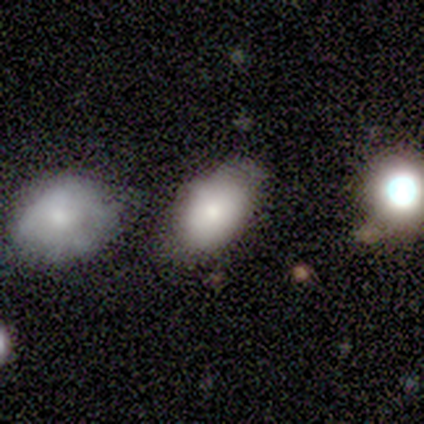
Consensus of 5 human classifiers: smooth-or-featured: smooth: 60% | featured or disk: 20% | star or artifact: 20%
  how-rounded: in between: 67% | round: 33% | cigar-shaped: 0%
  merging: minor disturbance: 50% | major disturbance: 25% | merger: 25% | none: 0%